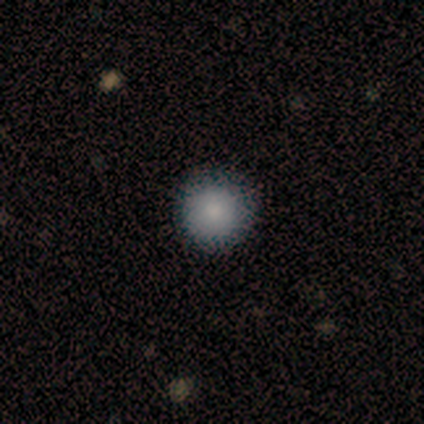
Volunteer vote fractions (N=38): A smooth galaxy with no disk features (95%) that is round (97%).

Vote fractions:
- Smooth or featured? smooth: 95% / featured or disk: 3% / star or artifact: 3%
- How rounded? round: 97% / in between: 3% / cigar-shaped: 0%
- Merging? none: 97% / minor disturbance: 3% / major disturbance: 0% / merger: 0%